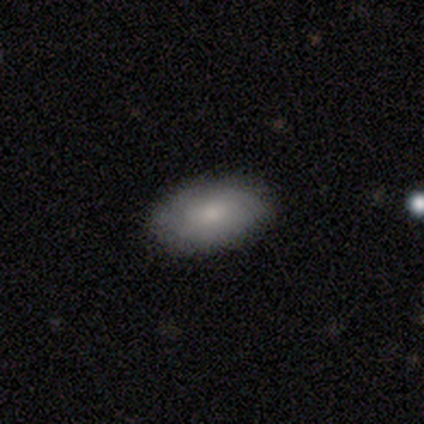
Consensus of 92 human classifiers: smooth-or-featured: smooth: 77% | featured or disk: 21% | star or artifact: 2%
  how-rounded: in between: 96% | round: 3% | cigar-shaped: 1%
  merging: none: 82% | minor disturbance: 16% | major disturbance: 2% | merger: 0%